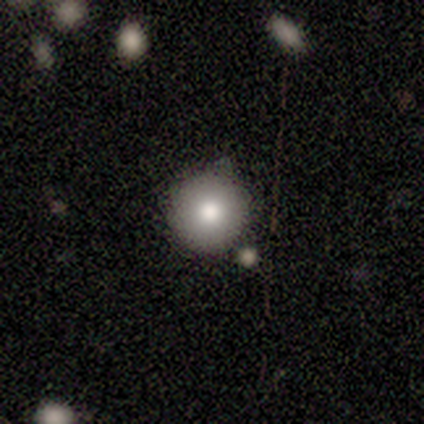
Smooth or featured?
  - smooth: 100% *
  - featured or disk: 0%
  - star or artifact: 0%
How rounded?
  - round: 100% *
  - in between: 0%
  - cigar-shaped: 0%
Merging?
  - none: 100% *
  - minor disturbance: 0%
  - major disturbance: 0%
  - merger: 0%